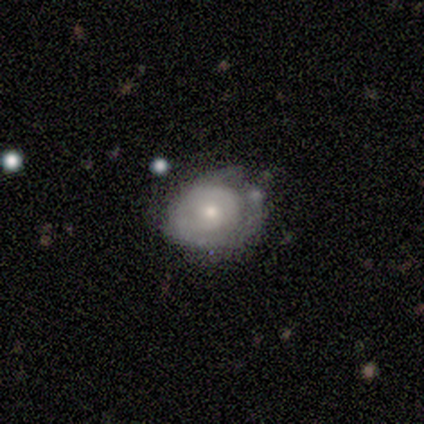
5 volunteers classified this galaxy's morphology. This appears to be a smooth galaxy with no disk features (40%, tied with featured or disk) that is round (100%). Merging: minor disturbance (50%).